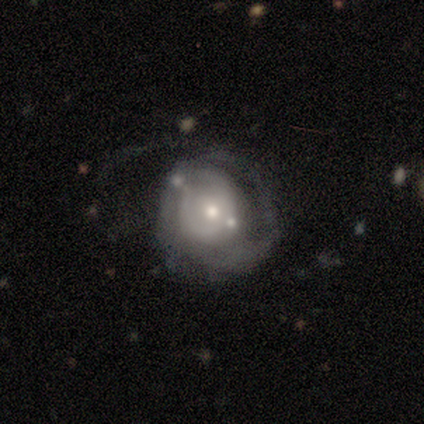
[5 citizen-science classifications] Q: Smooth or featured?
A: featured or disk (80%); runner-up: smooth (20%)
Q: Edge-on disk?
A: no (100%)
Q: Bar?
A: no (75%); runner-up: weak (25%)
Q: Spiral arms?
A: yes (75%); runner-up: no (25%)
Q: Spiral winding?
A: loose (67%); runner-up: tight (33%)
Q: Spiral arm count?
A: can't tell (67%); runner-up: 1 (33%)
Q: Bulge size?
A: moderate (50%); tied with: small (50%)
Q: Merging?
A: minor disturbance (60%); runner-up: none (20%)